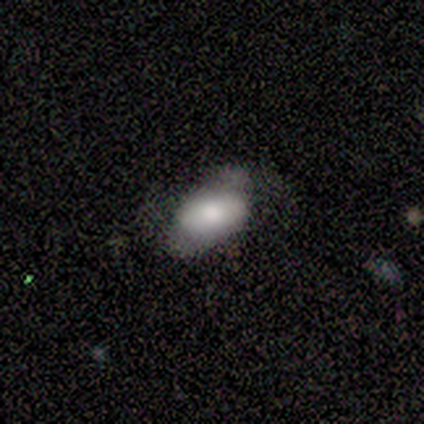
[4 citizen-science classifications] Smooth or featured? smooth (75%)
How rounded? in between (100%)
Merging? none (75%)